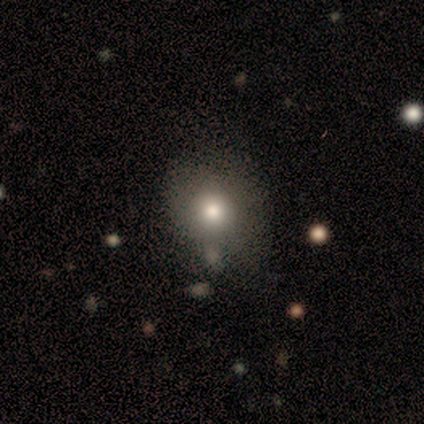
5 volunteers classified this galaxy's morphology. Q: Smooth or featured?
A: smooth (80%); runner-up: star or artifact (20%)
Q: How rounded?
A: round (100%)
Q: Merging?
A: none (100%)